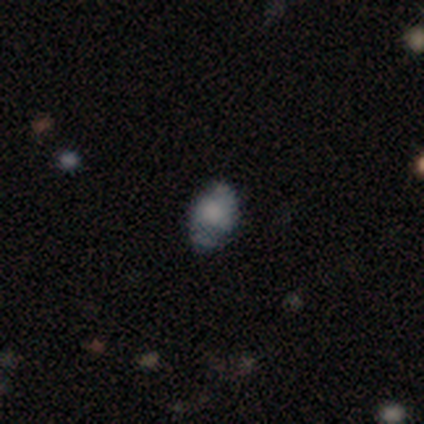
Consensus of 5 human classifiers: smooth-or-featured: smooth: 40% (tied) | featured or disk: 40% (tied) | star or artifact: 20%
  how-rounded: in between: 100% | round: 0% | cigar-shaped: 0%
  merging: none: 50% (tied) | minor disturbance: 50% (tied) | major disturbance: 0% | merger: 0%